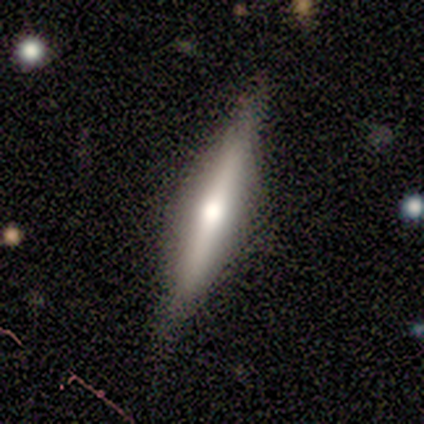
Volunteers were most divided on "smooth or featured": featured or disk: 80%, smooth: 20%, star or artifact: 0%. More confident: edge-on disk — yes (100%); edge-on bulge — rounded (100%); merging — none (80%).